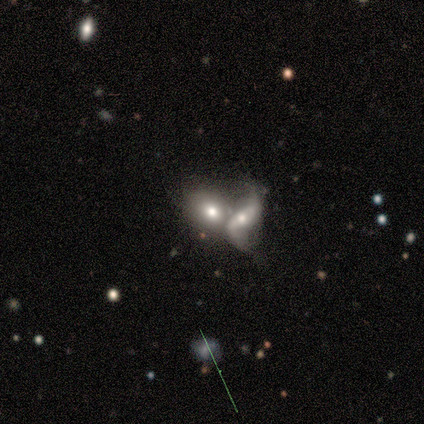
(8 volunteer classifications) Smooth or featured: featured or disk — 62% (smooth — 38%)
Edge-on disk: no — 100%
Bar: strong — 40% (tied with no — 40%)
Spiral arms: yes — 60% (no — 40%)
Spiral winding: loose — 100%
Spiral arm count: 2 — 100%
Bulge size: moderate — 80% (dominant — 20%)
Merging: merger — 62% (none — 25%)